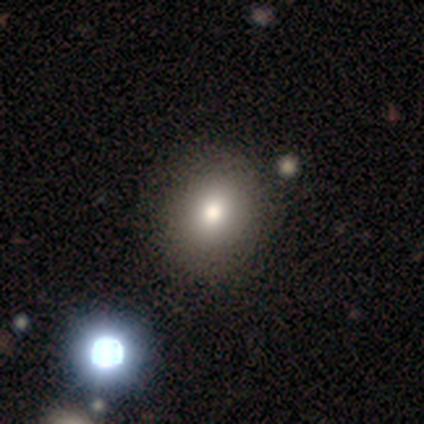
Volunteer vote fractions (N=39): smooth_or_featured: smooth (p=0.79) [alt: featured or disk p=0.15]
how_rounded: round (p=0.65) [alt: in between p=0.32]
merging: none (p=0.65) [alt: major disturbance p=0.03]